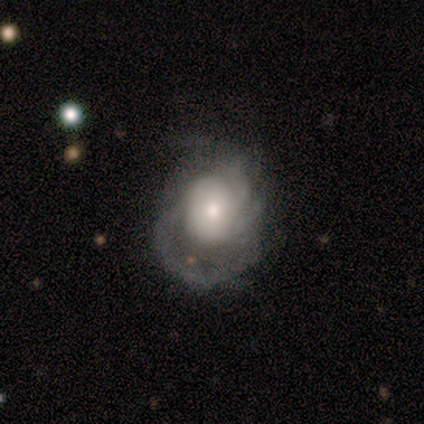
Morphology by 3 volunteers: smooth-or-featured: smooth: 67% | featured or disk: 33% | star or artifact: 0%
  how-rounded: round: 50% (tied) | in between: 50% (tied) | cigar-shaped: 0%
  merging: none: 67% | major disturbance: 33% | minor disturbance: 0% | merger: 0%